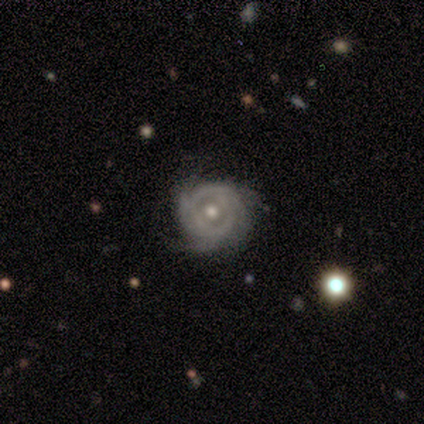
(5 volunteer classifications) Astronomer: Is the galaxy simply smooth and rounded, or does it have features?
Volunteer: featured or disk — 80%.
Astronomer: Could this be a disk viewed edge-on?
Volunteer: no — 100%.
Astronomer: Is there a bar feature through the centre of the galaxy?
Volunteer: no — 75%.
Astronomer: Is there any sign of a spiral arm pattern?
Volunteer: yes — 50%, tied with no at 50%.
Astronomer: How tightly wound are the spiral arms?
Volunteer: tight — 100%.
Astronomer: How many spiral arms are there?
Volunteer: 4 — 50%, tied with can't tell at 50%.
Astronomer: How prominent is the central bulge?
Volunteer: small — 75%.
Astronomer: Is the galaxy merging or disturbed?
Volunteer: none — 75%.